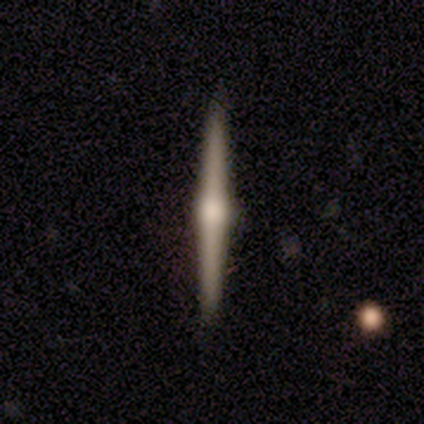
Smooth or featured: featured or disk — 75% (smooth — 25%)
Edge-on disk: yes — 100%
Edge-on bulge: rounded — 100%
Merging: none — 75% (major disturbance — 25%)